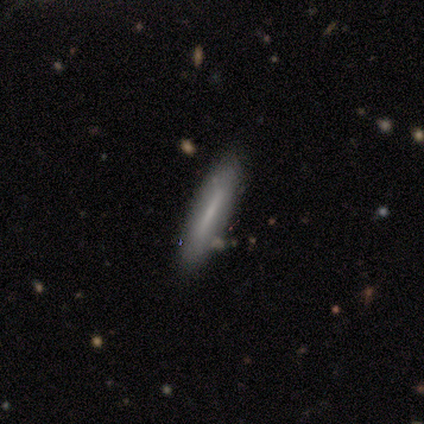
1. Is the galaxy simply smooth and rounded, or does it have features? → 60% smooth, 40% featured or disk, 0% star or artifact.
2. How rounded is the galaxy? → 100% cigar-shaped, 0% round, 0% in between.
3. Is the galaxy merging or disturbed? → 80% none, 20% minor disturbance, 0% major disturbance, 0% merger.